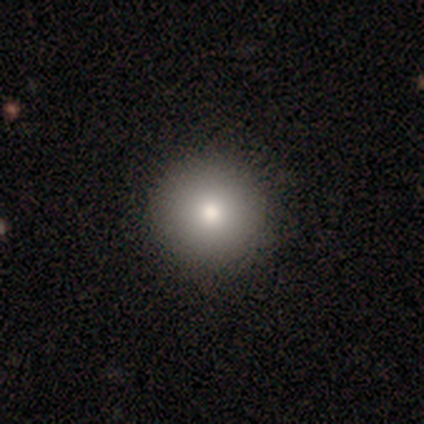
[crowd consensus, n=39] Volunteers were most divided on "smooth or featured": smooth: 74%, star or artifact: 21%, featured or disk: 5%. More confident: merging — none (94%); how rounded — round (93%).